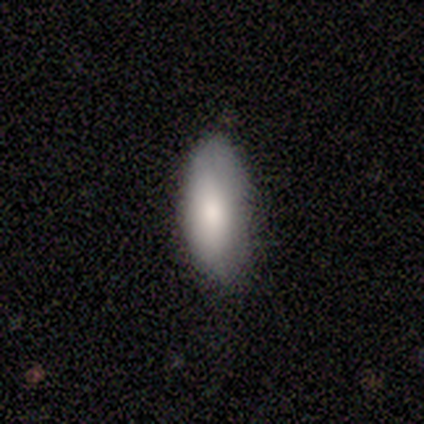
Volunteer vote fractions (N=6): smooth-or-featured: smooth: 100% | featured or disk: 0% | star or artifact: 0%
  how-rounded: in between: 83% | cigar-shaped: 17% | round: 0%
  merging: none: 83% | minor disturbance: 17% | major disturbance: 0% | merger: 0%